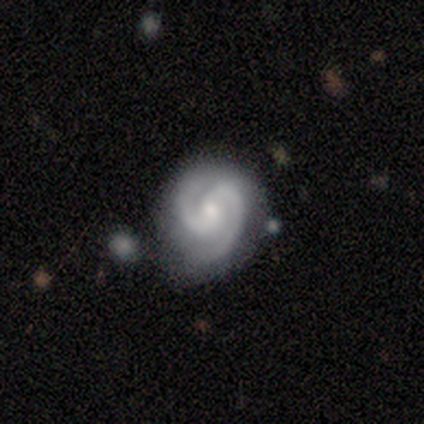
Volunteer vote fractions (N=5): Smooth or featured?
  - featured or disk: 100% *
  - smooth: 0%
  - star or artifact: 0%
Edge-on disk?
  - no: 100% *
  - yes: 0%
Bar?
  - weak: 80% *
  - no: 20%
  - strong: 0%
Spiral arms?
  - yes: 100% *
  - no: 0%
Spiral winding?
  - tight: 60% *
  - medium: 20%
  - loose: 20%
Spiral arm count?
  - 2: 80% *
  - 3: 20%
  - 1: 0%
  - 4: 0%
  - more than 4: 0%
  - can't tell: 0%
Bulge size?
  - small: 80% *
  - moderate: 20%
  - dominant: 0%
  - large: 0%
  - none: 0%
Merging?
  - none: 80% *
  - minor disturbance: 20%
  - major disturbance: 0%
  - merger: 0%